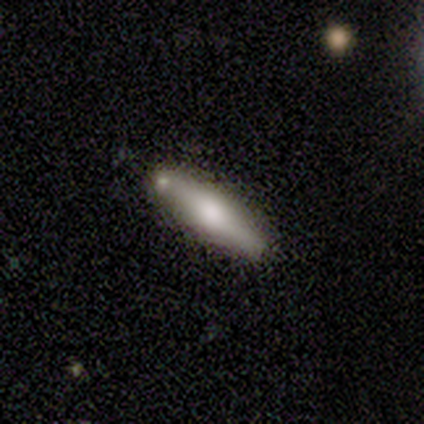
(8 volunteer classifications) Overall: smooth (75%). How rounded: cigar-shaped (100%). Merging: none (88%).